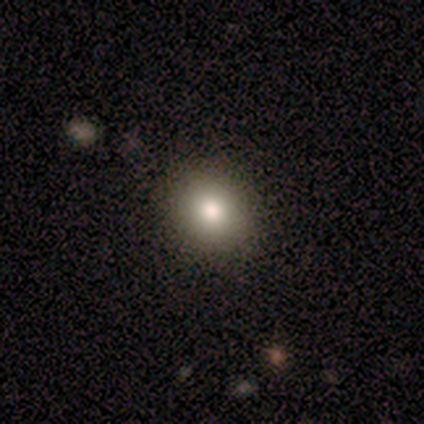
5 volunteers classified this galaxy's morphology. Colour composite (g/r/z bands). It shows a smooth galaxy with no disk features (60%) that is round (67%). Merging: none (75%).